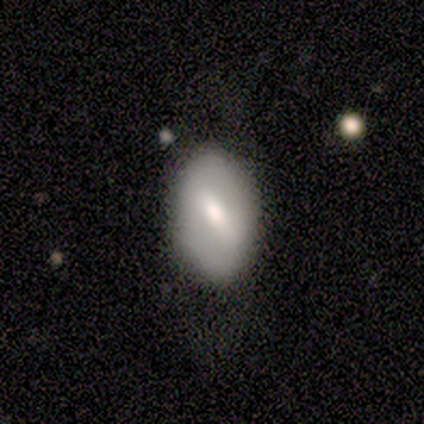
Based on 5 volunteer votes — smooth-or-featured: smooth: 60% | featured or disk: 40% | star or artifact: 0%
  how-rounded: in between: 100% | round: 0% | cigar-shaped: 0%
  merging: none: 80% | minor disturbance: 20% | major disturbance: 0% | merger: 0%